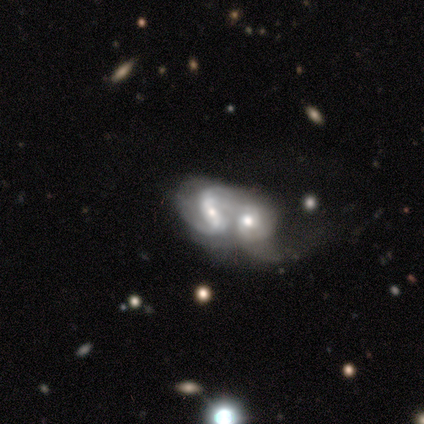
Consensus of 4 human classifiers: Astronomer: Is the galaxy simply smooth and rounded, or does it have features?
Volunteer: featured or disk — 75%.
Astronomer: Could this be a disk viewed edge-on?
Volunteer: no — 100%.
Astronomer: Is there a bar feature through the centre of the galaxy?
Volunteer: no — 67%.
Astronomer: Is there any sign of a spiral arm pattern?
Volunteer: yes — 100%.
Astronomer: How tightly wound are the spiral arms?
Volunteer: medium — 67%.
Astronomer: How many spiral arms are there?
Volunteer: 2 — 67%.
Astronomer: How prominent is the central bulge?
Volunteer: moderate — 67%.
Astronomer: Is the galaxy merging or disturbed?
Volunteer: merger — 100%.